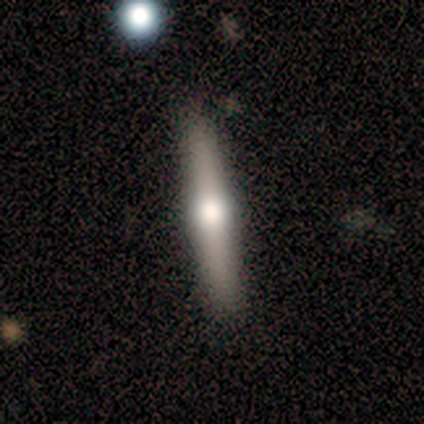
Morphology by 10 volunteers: featured or disk 70%, smooth 30%, star or artifact 0%. Down the decision tree: edge-on disk — yes (100%); edge-on bulge — rounded (100%); merging — none (100%).